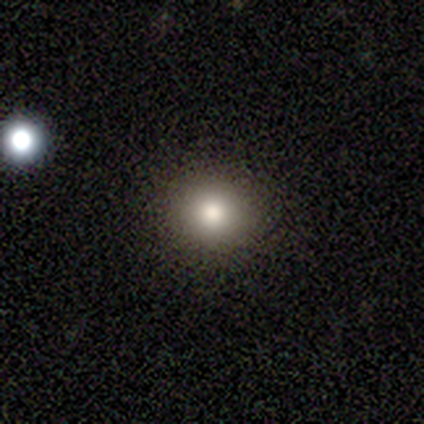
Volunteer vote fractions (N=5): A smooth galaxy with no disk features (100%) that is round (80%).

Vote fractions:
- Smooth or featured? smooth: 100% / featured or disk: 0% / star or artifact: 0%
- How rounded? round: 80% / in between: 20% / cigar-shaped: 0%
- Merging? none: 80% / minor disturbance: 20% / major disturbance: 0% / merger: 0%